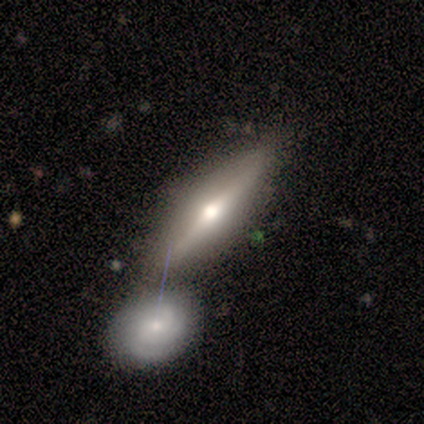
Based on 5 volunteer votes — A featured or disk galaxy (60%) viewed edge-on (100%) with a rounded central bulge (100%).

Vote fractions:
- Smooth or featured? featured or disk: 60% / smooth: 40% / star or artifact: 0%
- Edge-on disk? yes: 100% / no: 0%
- Edge-on bulge? rounded: 100% / boxy: 0% / none: 0%
- Merging? merger: 60% / none: 40% / minor disturbance: 0% / major disturbance: 0%